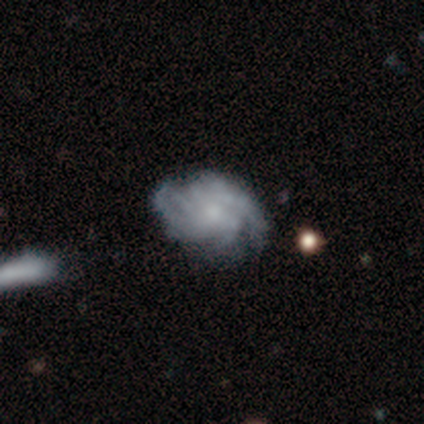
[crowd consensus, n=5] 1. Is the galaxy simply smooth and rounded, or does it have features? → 80% featured or disk, 20% star or artifact, 0% smooth.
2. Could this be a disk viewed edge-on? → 100% no, 0% yes.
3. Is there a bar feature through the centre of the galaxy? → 75% no, 25% strong, 0% weak.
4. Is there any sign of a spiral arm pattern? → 75% yes, 25% no.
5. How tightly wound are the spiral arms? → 100% medium, 0% tight, 0% loose.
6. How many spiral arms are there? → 67% can't tell, 33% 2, 0% 1, 0% 3, 0% 4, 0% more than 4.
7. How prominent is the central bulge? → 100% small, 0% dominant, 0% large, 0% moderate, 0% none.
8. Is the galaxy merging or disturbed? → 50% none, 25% minor disturbance, 25% major disturbance, 0% merger.